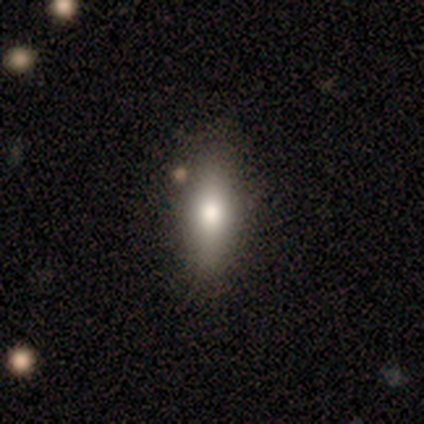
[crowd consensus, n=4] Morphology: type=smooth (75%); roundness=in between (100%); merging=none (67%).